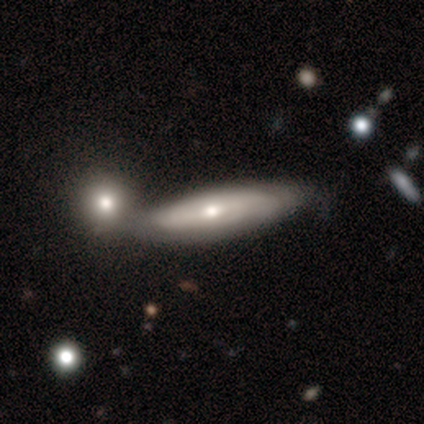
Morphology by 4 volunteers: A smooth galaxy with no disk features (75%) that is in between round and cigar-shaped (67%).

Vote fractions:
- Smooth or featured? smooth: 75% / featured or disk: 25% / star or artifact: 0%
- How rounded? in between: 67% / cigar-shaped: 33% / round: 0%
- Merging? none: 50% / minor disturbance: 25% / merger: 25% / major disturbance: 0%